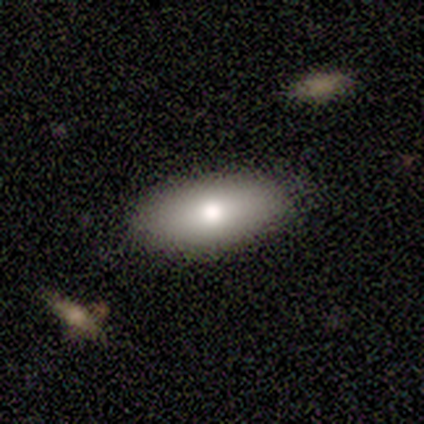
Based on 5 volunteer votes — Q: Smooth or featured?
A: smooth (60%); runner-up: featured or disk (40%)
Q: How rounded?
A: in between (100%)
Q: Merging?
A: none (100%)